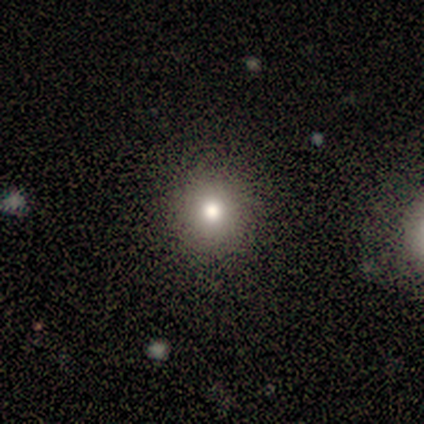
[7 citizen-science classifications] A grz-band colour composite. It shows a smooth galaxy with no disk features (71%) that is round (100%). Merging: none (86%).